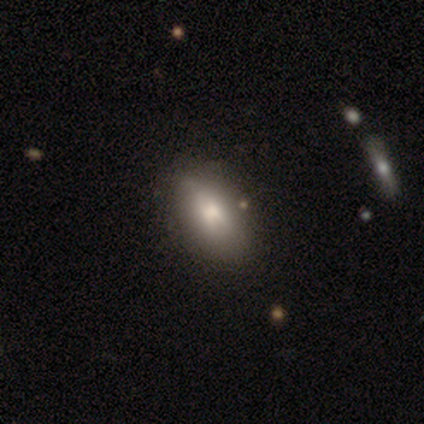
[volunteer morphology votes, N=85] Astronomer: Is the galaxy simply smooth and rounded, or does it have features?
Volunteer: smooth — 68%.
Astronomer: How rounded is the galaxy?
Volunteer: in between — 84%.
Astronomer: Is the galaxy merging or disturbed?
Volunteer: none — 79%.